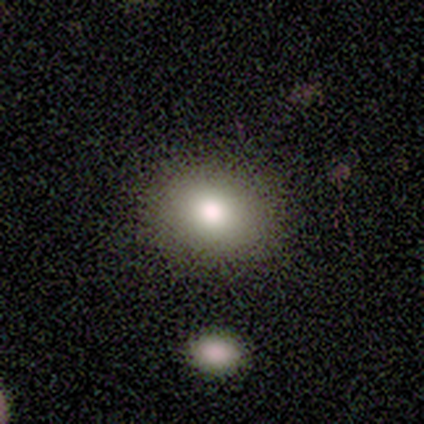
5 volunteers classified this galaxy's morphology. Overall: smooth (80%). How rounded: round (75%). Merging: none (100%).